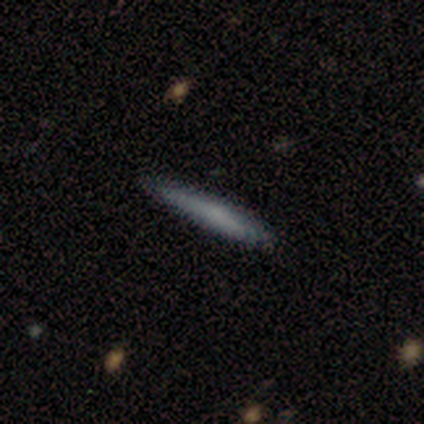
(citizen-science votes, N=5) Volunteers were most divided on "merging": none: 75%, minor disturbance: 25%, major disturbance: 0%, merger: 0%. More confident: how rounded — cigar-shaped (100%); smooth or featured — smooth (80%).